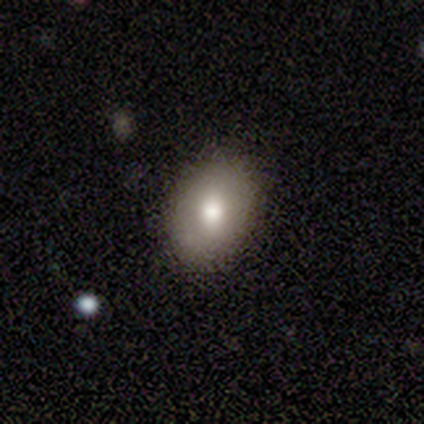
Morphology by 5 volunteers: A smooth galaxy with no disk features (80%) that is in between round and cigar-shaped (75%). Merging: none (60%).